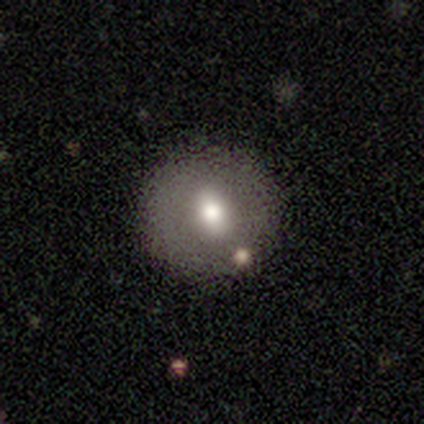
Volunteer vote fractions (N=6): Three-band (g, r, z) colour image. It shows a smooth galaxy with no disk features (83%) that is round (100%). Merging: none (80%).